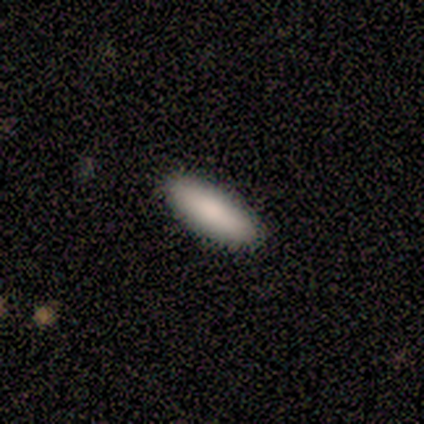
This appears to be a smooth galaxy with no disk features (100%) that is cigar-shaped (60%). Merging: none (100%).